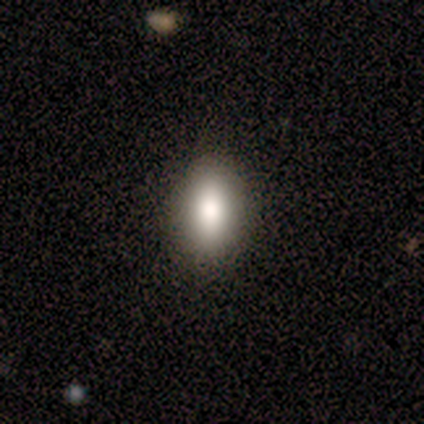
Smooth or featured?
  - smooth: 50% * (tied)
  - featured or disk: 50% * (tied)
  - star or artifact: 0%
How rounded?
  - in between: 50% * (tied)
  - cigar-shaped: 50% * (tied)
  - round: 0%
Merging?
  - none: 75% *
  - minor disturbance: 25%
  - major disturbance: 0%
  - merger: 0%